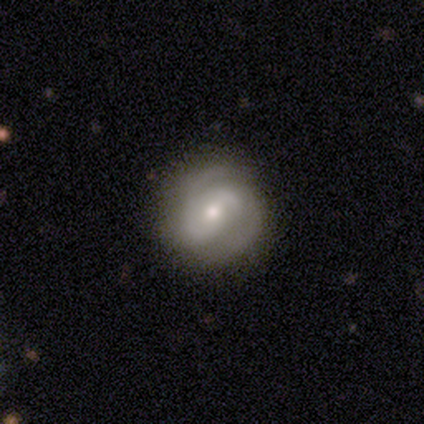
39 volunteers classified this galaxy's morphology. Smooth or featured? 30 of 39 (77%) said featured or disk. Edge-on disk? 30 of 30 (100%) said no. Bar? 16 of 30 (53%) said no. Spiral arms? 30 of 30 (100%) said yes. Spiral winding? 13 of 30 (43%) said medium. Spiral arm count? 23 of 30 (77%) said 2. Bulge size? 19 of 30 (63%) said small. Merging? 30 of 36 (83%) said none.